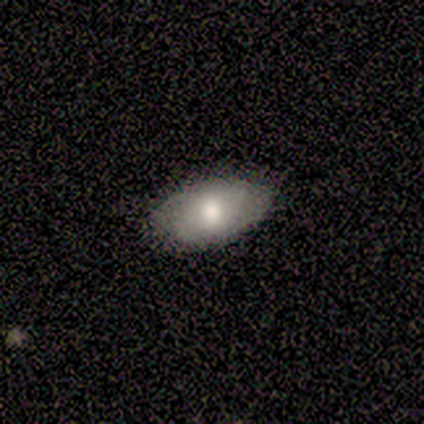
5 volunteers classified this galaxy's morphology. smooth_or_featured: smooth (p=0.80) [alt: featured or disk p=0.20]
how_rounded: in between (p=0.75) [alt: round p=0.25]
merging: none (p=1.00)